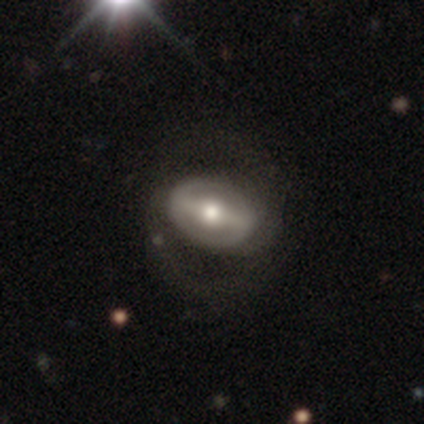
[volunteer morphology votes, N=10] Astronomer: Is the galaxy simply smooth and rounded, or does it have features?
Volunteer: featured or disk — 80%.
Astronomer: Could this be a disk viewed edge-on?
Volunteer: no — 75%.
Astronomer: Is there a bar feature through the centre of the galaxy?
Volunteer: strong — 50%, tied with weak at 50%.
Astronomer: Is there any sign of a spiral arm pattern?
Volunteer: yes — 67%.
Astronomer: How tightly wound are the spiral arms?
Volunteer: medium — 50%.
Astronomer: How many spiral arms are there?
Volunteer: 2 — 75%.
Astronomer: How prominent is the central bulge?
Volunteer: moderate — 67%.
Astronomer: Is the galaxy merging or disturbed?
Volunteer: none — 50% (runner-up: major disturbance, 30%).